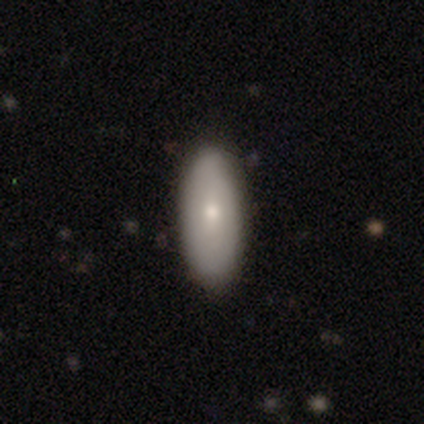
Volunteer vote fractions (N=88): Smooth or featured? 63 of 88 (72%) said smooth. How rounded? 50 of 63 (79%) said in between. Merging? 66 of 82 (80%) said none.